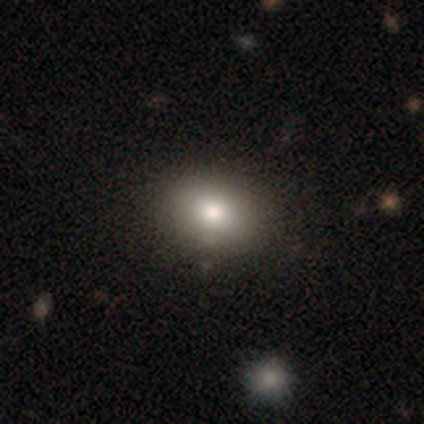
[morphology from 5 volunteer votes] Smooth or featured: smooth — 100%
How rounded: in between — 80% (round — 20%)
Merging: none — 100%